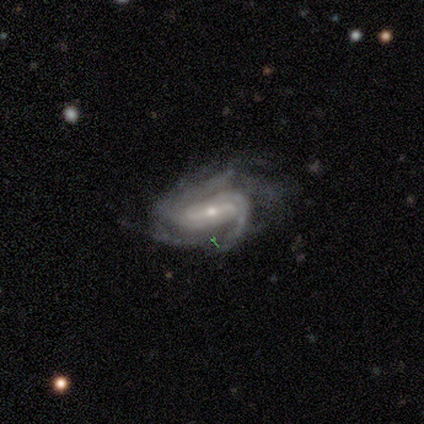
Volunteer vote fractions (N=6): Volunteers were most divided on "bar" (2-way tie): strong: 50%, weak: 50%, no: 0%; "merging" (2-way tie): none: 40%, minor disturbance: 40%, major disturbance: 20%, merger: 0%. More confident: edge-on disk — no (100%); spiral arms — yes (100%); spiral winding — medium (75%); spiral arm count — 2 (75%); bulge size — moderate (75%); smooth or featured — featured or disk (67%).